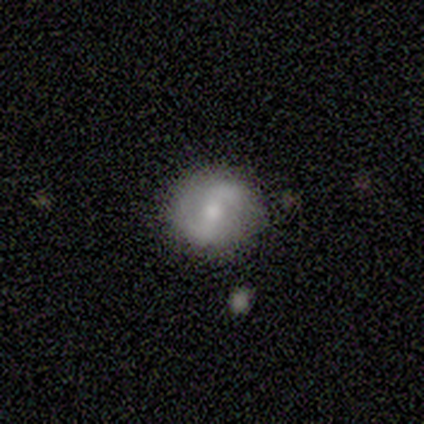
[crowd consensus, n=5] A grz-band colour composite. It shows a smooth galaxy with no disk features (40%, tied with featured or disk) that is round (100%). Merging: none (75%).